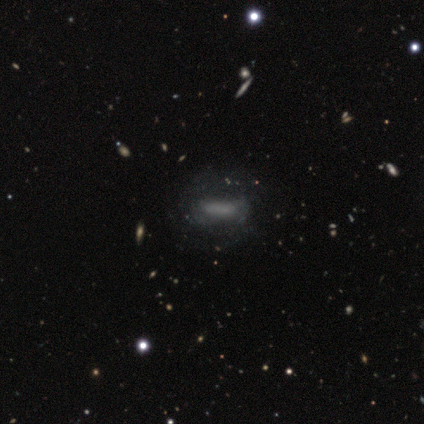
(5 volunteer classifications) Smooth or featured? smooth (60%)
How rounded? in between (100%)
Merging? none (50%, tied with minor disturbance)